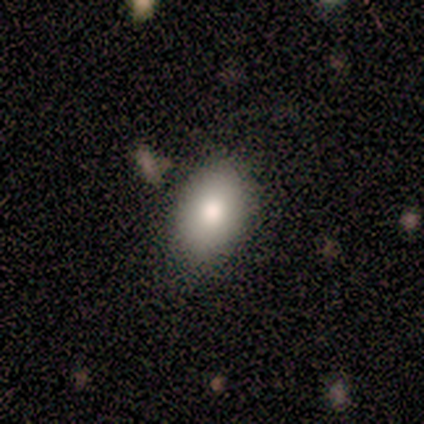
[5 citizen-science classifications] Q: Smooth or featured?
A: smooth (80%); runner-up: featured or disk (20%)
Q: How rounded?
A: in between (100%)
Q: Merging?
A: none (60%); runner-up: minor disturbance (40%)